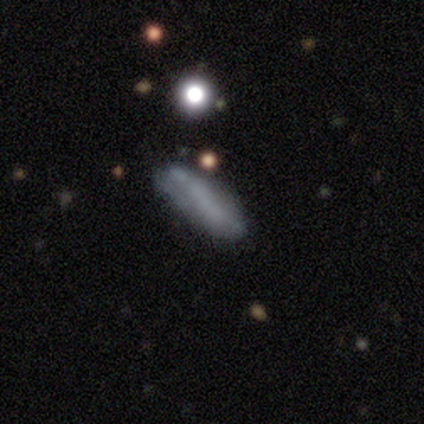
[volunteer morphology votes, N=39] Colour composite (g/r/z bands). It shows a smooth galaxy with no disk features (59%) that is cigar-shaped (52%). Merging: none (53%).